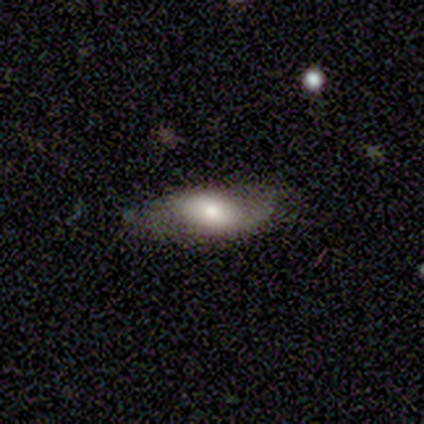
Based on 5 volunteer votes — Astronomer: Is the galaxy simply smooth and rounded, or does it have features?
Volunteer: smooth — 40%, tied with featured or disk at 40%.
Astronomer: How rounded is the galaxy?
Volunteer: in between — 100%.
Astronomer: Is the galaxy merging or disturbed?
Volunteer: none — 50%, tied with minor disturbance at 50%.